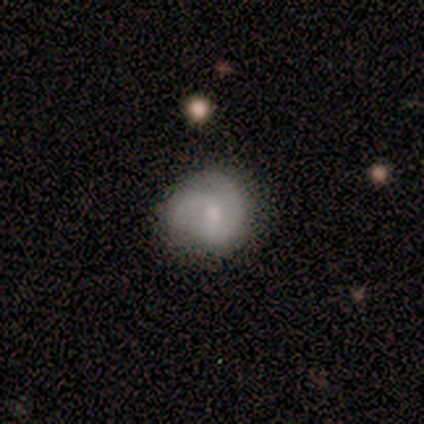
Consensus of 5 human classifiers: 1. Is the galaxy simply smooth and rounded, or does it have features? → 80% featured or disk, 20% smooth, 0% star or artifact.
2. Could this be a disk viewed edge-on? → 100% no, 0% yes.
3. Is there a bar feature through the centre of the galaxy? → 75% weak, 25% no, 0% strong.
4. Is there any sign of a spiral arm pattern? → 100% yes, 0% no.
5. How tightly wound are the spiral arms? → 75% medium, 25% tight, 0% loose.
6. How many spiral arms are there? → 75% 2, 25% can't tell, 0% 1, 0% 3, 0% 4, 0% more than 4.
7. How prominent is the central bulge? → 50% small, 25% moderate, 25% none, 0% dominant, 0% large.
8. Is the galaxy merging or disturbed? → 80% none, 20% minor disturbance, 0% major disturbance, 0% merger.